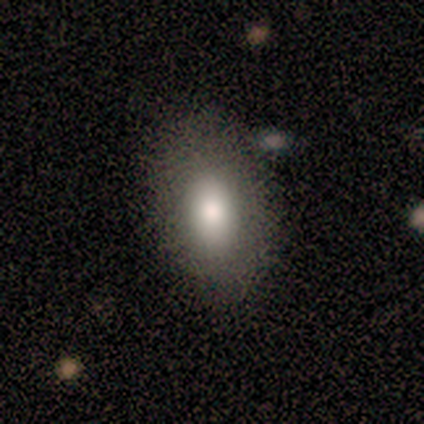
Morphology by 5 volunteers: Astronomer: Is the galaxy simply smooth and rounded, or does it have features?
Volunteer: smooth — 100%.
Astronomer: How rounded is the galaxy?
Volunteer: in between — 100%.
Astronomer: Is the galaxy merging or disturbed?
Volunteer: none — 100%.